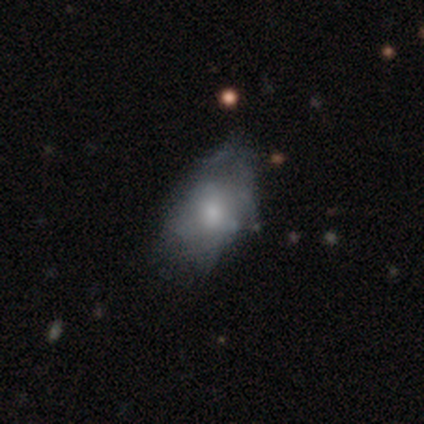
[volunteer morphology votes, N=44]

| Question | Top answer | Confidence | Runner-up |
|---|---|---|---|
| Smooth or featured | featured or disk | 57% | smooth (39%) |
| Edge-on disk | no | 96% | yes (4%) |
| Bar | no | 83% | weak (12%) |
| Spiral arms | no | 67% | yes (33%) |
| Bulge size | moderate | 46% | small (25%) |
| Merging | minor disturbance | 38% | none (33%) |